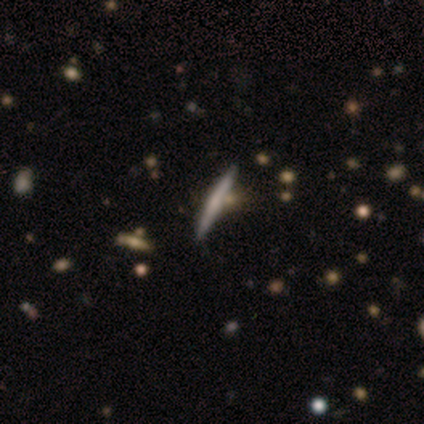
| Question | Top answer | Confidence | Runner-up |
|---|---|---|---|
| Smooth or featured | smooth | 50% | tied: featured or disk (50%) |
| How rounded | cigar-shaped | 100% | — |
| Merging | none | 75% | minor disturbance (25%) |